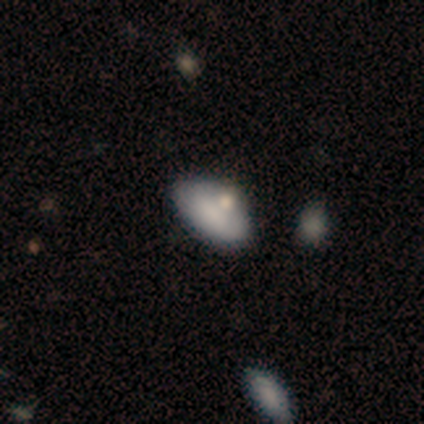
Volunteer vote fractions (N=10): Smooth or featured: smooth — 80% (featured or disk — 20%)
How rounded: in between — 88% (cigar-shaped — 12%)
Merging: none — 80% (minor disturbance — 10%)